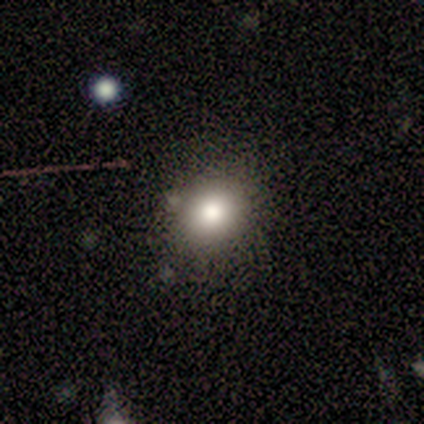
A smooth galaxy with no disk features (100%) that is round (100%). Merging: none (100%).